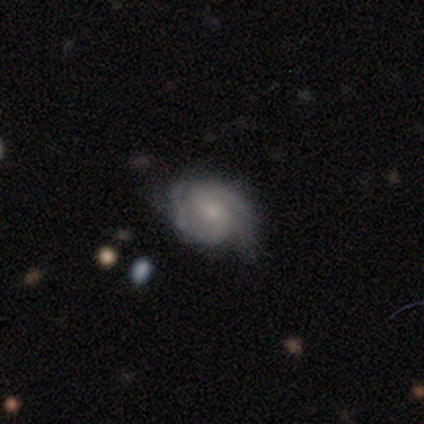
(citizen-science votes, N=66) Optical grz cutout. It shows a featured or disk galaxy (91%) with no bar (61%), 2 (72%) medium (48%) spiral arms (98%) and a small central bulge (68%). Merging: none (67%).